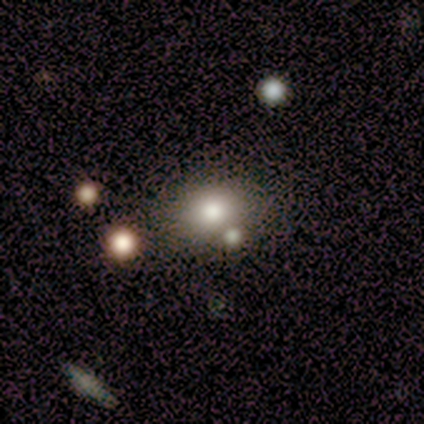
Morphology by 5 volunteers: Q: Smooth or featured?
A: smooth (40%); tied with: star or artifact (40%)
Q: How rounded?
A: round (50%); tied with: in between (50%)
Q: Merging?
A: merger (67%); runner-up: none (33%)